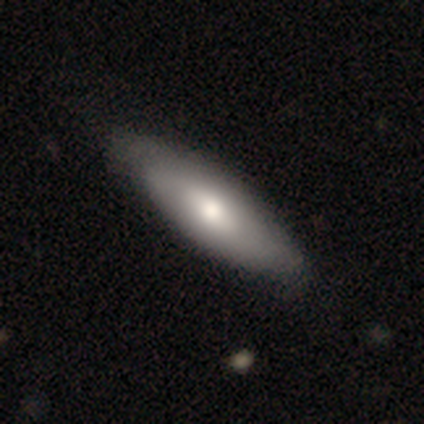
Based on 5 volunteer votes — This is likely a smooth galaxy (60%). How rounded: likely in between (67%). Merging: clearly none (80%).